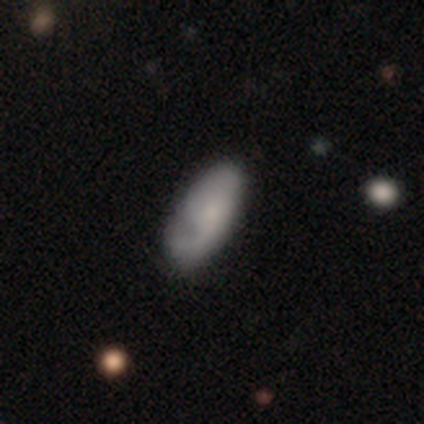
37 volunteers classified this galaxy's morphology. Smooth or featured? 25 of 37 (68%) said smooth. How rounded? 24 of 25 (96%) said in between. Merging? 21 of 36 (58%) said none.